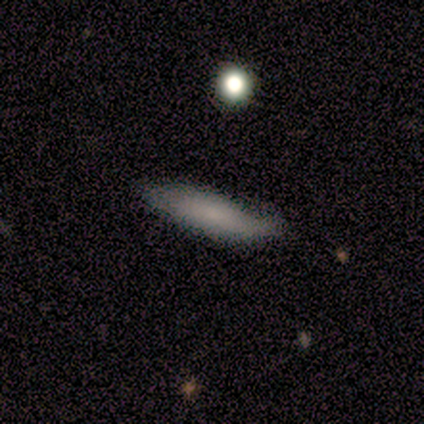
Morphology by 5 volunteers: Smooth or featured? smooth (100%)
How rounded? cigar-shaped (60%)
Merging? none (100%)